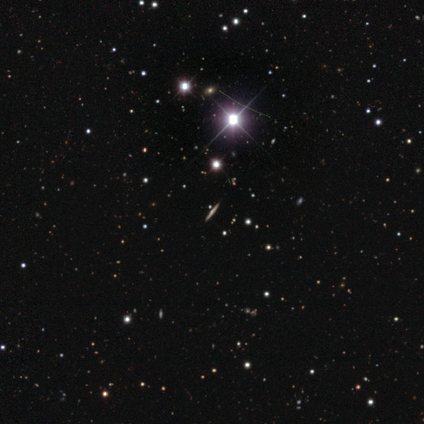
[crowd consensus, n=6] featured or disk 50%, star or artifact 33%, smooth 17%. Down the decision tree: edge-on disk — yes (100%); edge-on bulge — rounded (100%); merging — none (100%).